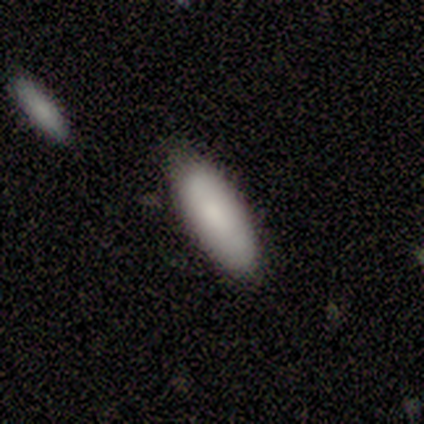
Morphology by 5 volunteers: This is clearly a smooth galaxy (100%). How rounded: clearly in between (100%). Merging: clearly none (80%).